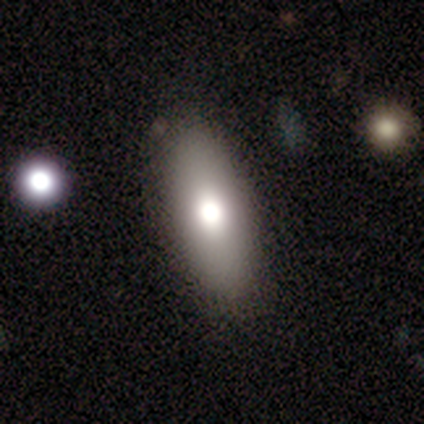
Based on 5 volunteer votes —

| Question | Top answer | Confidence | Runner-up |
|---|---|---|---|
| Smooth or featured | smooth | 100% | — |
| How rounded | in between | 60% | round (20%) |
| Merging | none | 100% | — |